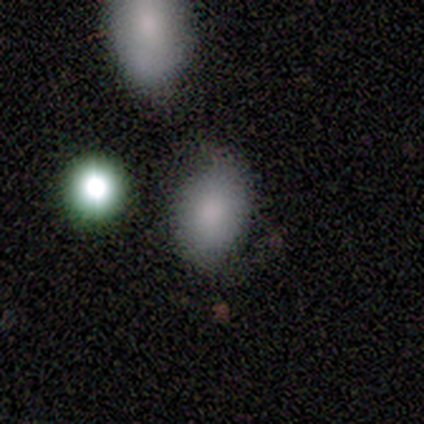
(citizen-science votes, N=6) A smooth galaxy with no disk features (100%) that is round (50%, tied with in between).

Vote fractions:
- Smooth or featured? smooth: 100% / featured or disk: 0% / star or artifact: 0%
- How rounded? round: 50% (tied) / in between: 50% (tied) / cigar-shaped: 0%
- Merging? none: 83% / minor disturbance: 17% / major disturbance: 0% / merger: 0%